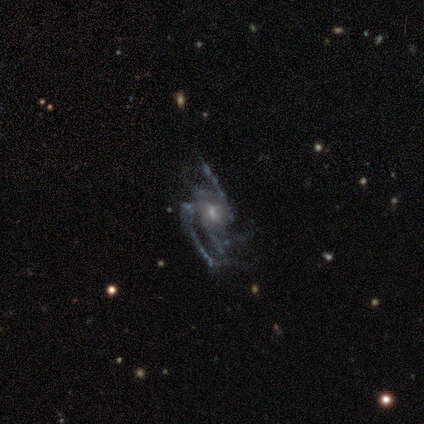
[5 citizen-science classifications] Smooth or featured: featured or disk — 100%
Edge-on disk: no — 100%
Bar: weak — 40% (tied with no — 40%)
Spiral arms: yes — 80% (no — 20%)
Spiral winding: loose — 75% (tight — 25%)
Spiral arm count: 2 — 50% (3 — 25%)
Bulge size: small — 80% (moderate — 20%)
Merging: major disturbance — 60% (none — 20%)